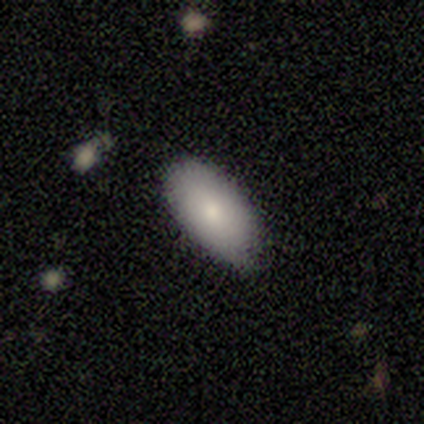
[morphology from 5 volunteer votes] smooth 40% (tied), featured or disk 40% (tied), star or artifact 20%. Down the decision tree: how rounded — in between (100%); merging — none (75%).